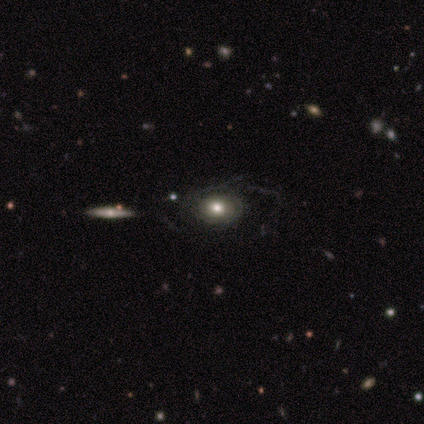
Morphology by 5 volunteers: Smooth or featured? smooth (40%, tied with featured or disk)
How rounded? round (50%, tied with in between)
Merging? none (75%)